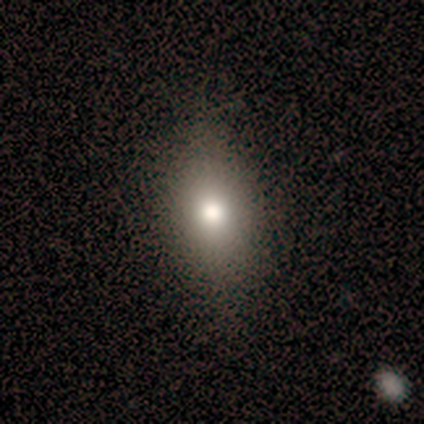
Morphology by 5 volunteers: type=smooth (60%); roundness=round (33%, tied with in between and cigar-shaped); merging=none (80%).